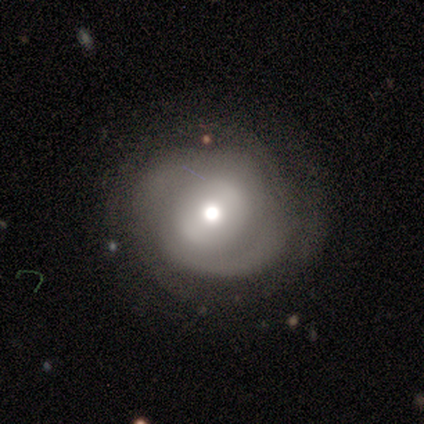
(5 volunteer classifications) featured or disk 80%, smooth 20%, star or artifact 0%. Down the decision tree: edge-on disk — no (100%); bar — weak (75%); spiral arms — yes (100%); spiral arm count — 2 (75%); spiral winding — tight (75%); bulge size — moderate (75%); merging — none (80%).